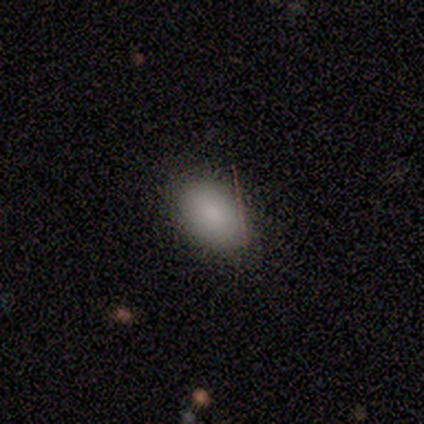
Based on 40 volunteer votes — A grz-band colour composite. It shows a smooth galaxy with no disk features (82%) that is in between round and cigar-shaped (88%). Merging: none (92%).